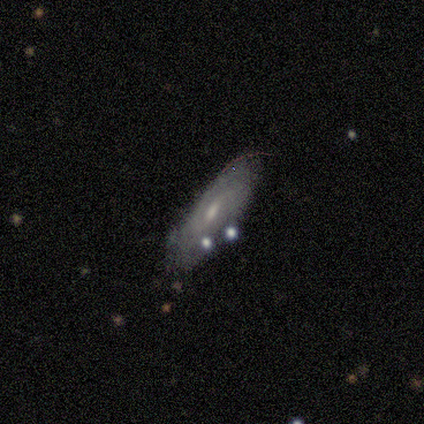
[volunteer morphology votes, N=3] Smooth or featured: smooth — 100%
How rounded: cigar-shaped — 67% (in between — 33%)
Merging: none — 67% (merger — 33%)